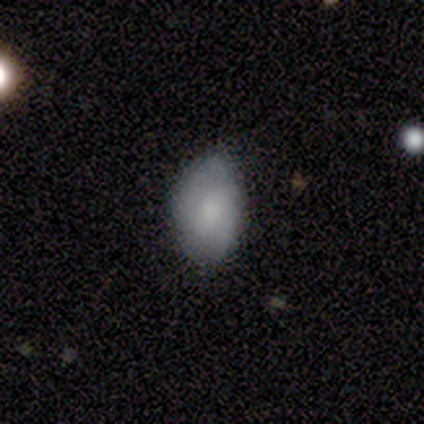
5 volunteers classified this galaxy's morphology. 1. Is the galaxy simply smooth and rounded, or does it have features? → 80% smooth, 20% featured or disk, 0% star or artifact.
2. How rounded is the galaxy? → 100% in between, 0% round, 0% cigar-shaped.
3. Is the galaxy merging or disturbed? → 80% none, 20% major disturbance, 0% minor disturbance, 0% merger.